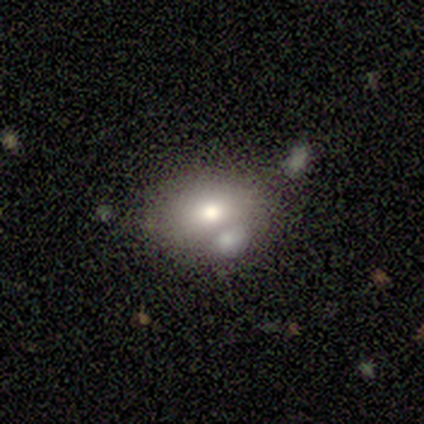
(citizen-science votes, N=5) Volunteers were most divided on "merging": none: 60%, merger: 40%, minor disturbance: 0%, major disturbance: 0%. More confident: smooth or featured — smooth (80%); how rounded — in between (75%).